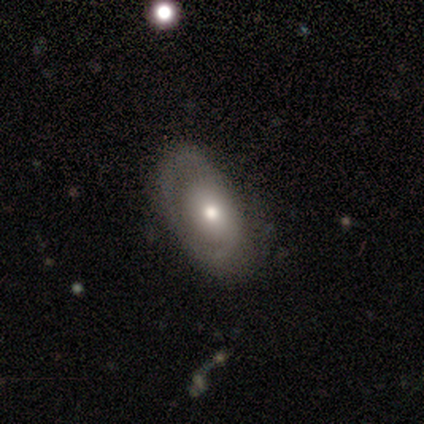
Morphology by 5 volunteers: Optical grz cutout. It shows a smooth galaxy with no disk features (60%) that is in between round and cigar-shaped (100%). Merging: none (60%).